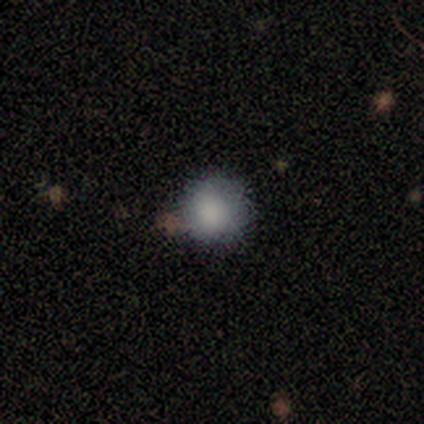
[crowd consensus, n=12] smooth_or_featured: smooth (p=1.00)
how_rounded: round (p=1.00)
merging: none (p=0.92) [alt: minor disturbance p=0.08]